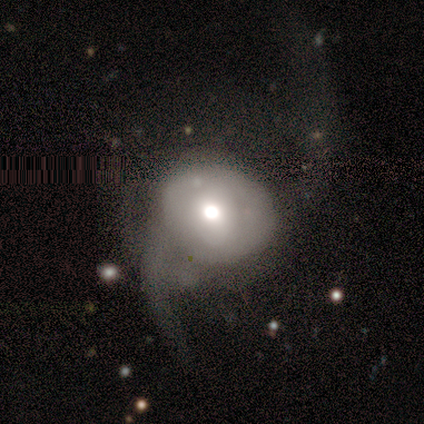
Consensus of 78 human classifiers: Q: Smooth or featured?
A: featured or disk (53%); runner-up: smooth (44%)
Q: Edge-on disk?
A: no (95%); runner-up: yes (5%)
Q: Bar?
A: no (79%); runner-up: weak (15%)
Q: Spiral arms?
A: yes (69%); runner-up: no (31%)
Q: Spiral winding?
A: loose (85%); runner-up: medium (11%)
Q: Spiral arm count?
A: 2 (89%); runner-up: can't tell (11%)
Q: Bulge size?
A: moderate (62%); runner-up: large (18%)
Q: Merging?
A: major disturbance (39%); runner-up: none (9%)